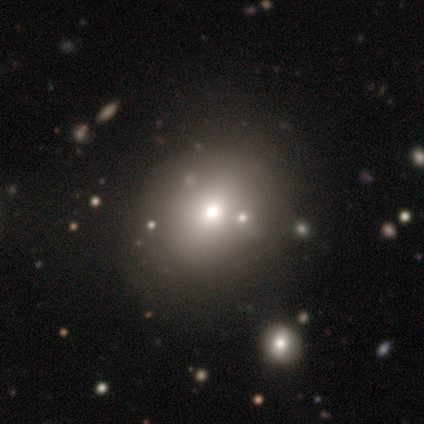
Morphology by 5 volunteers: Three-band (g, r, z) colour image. It shows a star or artifact, not a galaxy (60%).